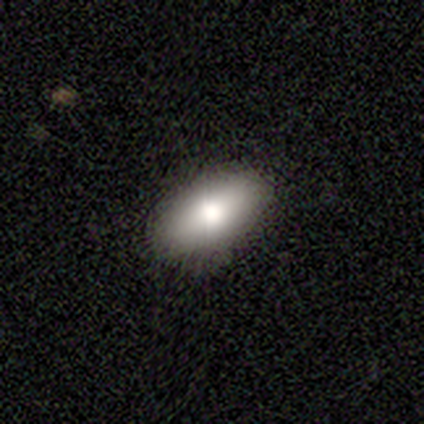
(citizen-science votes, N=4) smooth_or_featured: smooth (p=0.50) [alt: featured or disk p=0.25]
how_rounded: in between (p=1.00)
merging: none (p=1.00)